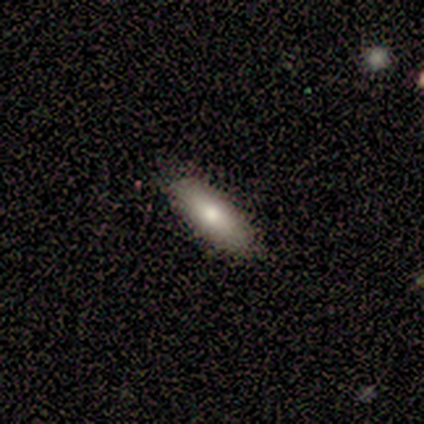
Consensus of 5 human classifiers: This appears to be a smooth galaxy with no disk features (100%) that is in between round and cigar-shaped (60%). Merging: none (100%).